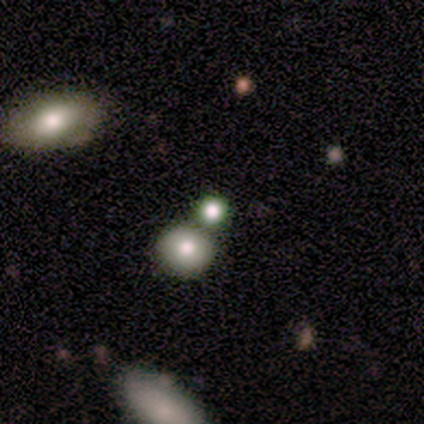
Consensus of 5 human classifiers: Smooth or featured: smooth — 40% (tied with featured or disk — 40%)
How rounded: round — 100%
Merging: none — 50% (tied with merger — 50%)